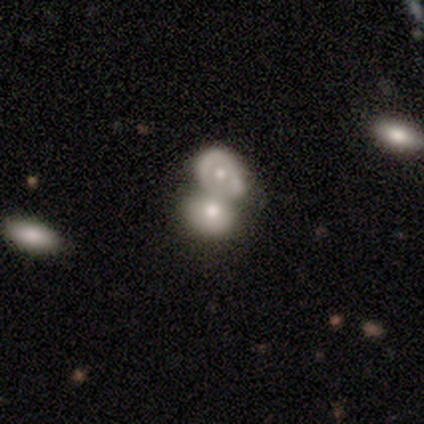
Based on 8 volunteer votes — smooth_or_featured: featured or disk (p=0.50) [alt: smooth p=0.38]
disk_edge_on: no (p=1.00)
bar: no (p=1.00)
has_spiral_arms: no (p=1.00)
bulge_size: moderate (p=0.75) [alt: small p=0.25]
merging: merger (p=0.86) [alt: none p=0.14]